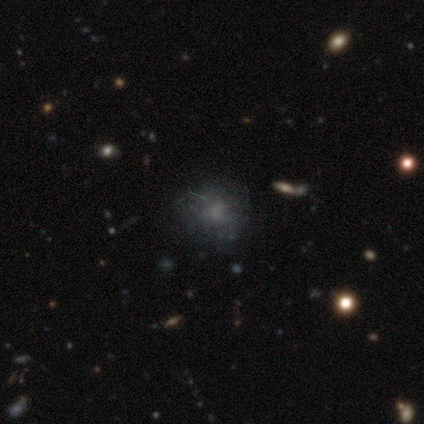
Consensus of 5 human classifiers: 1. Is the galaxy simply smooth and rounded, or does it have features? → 40% smooth (tied), 40% star or artifact (tied), 20% featured or disk.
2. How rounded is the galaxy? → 100% round, 0% in between, 0% cigar-shaped.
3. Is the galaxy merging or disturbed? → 100% none, 0% minor disturbance, 0% major disturbance, 0% merger.